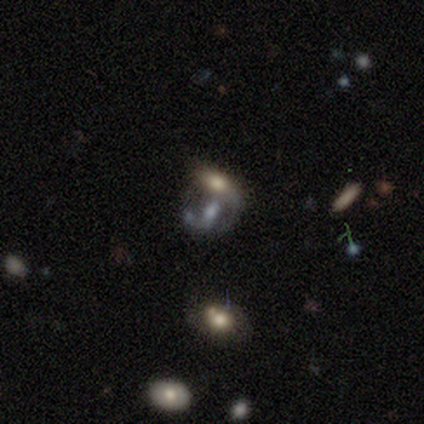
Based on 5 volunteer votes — Q: Smooth or featured?
A: featured or disk (60%); runner-up: star or artifact (40%)
Q: Edge-on disk?
A: no (100%)
Q: Bar?
A: strong (33%); tied with: weak (33%); no (33%)
Q: Spiral arms?
A: yes (67%); runner-up: no (33%)
Q: Spiral winding?
A: medium (50%); tied with: loose (50%)
Q: Spiral arm count?
A: 2 (100%)
Q: Bulge size?
A: large (67%); runner-up: none (33%)
Q: Merging?
A: none (33%); tied with: major disturbance (33%); merger (33%)